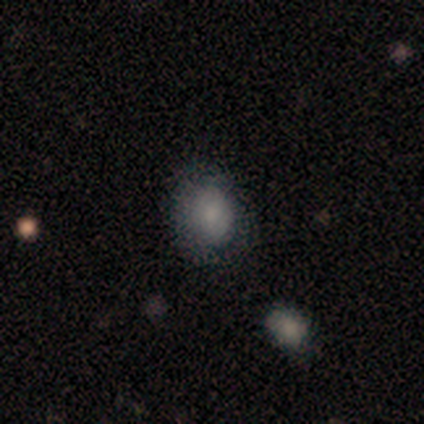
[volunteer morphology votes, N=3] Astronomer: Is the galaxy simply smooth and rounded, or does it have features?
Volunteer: smooth — 67%.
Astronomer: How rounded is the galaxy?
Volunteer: in between — 100%.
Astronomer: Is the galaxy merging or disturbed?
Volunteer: none — 100%.